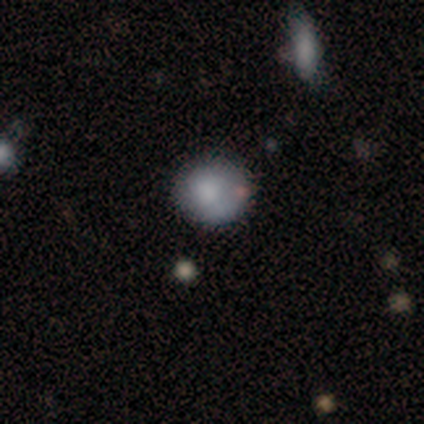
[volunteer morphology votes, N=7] smooth-or-featured: smooth: 86% | star or artifact: 14% | featured or disk: 0%
  how-rounded: round: 83% | in between: 17% | cigar-shaped: 0%
  merging: none: 67% | minor disturbance: 33% | major disturbance: 0% | merger: 0%